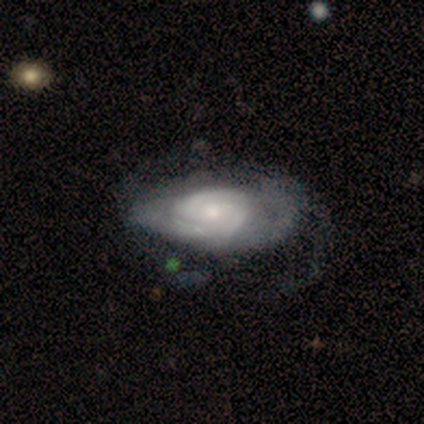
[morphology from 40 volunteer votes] smooth_or_featured: featured or disk (p=0.90) [alt: smooth p=0.10]
disk_edge_on: no (p=0.94) [alt: yes p=0.06]
bar: no (p=0.85) [alt: weak p=0.09]
has_spiral_arms: yes (p=0.94) [alt: no p=0.06]
spiral_winding: tight (p=0.75) [alt: medium p=0.16]
spiral_arm_count: 2 (p=0.56) [alt: can't tell p=0.38]
bulge_size: small (p=0.50) [alt: moderate p=0.35]
merging: none (p=0.40) [alt: major disturbance p=0.23]